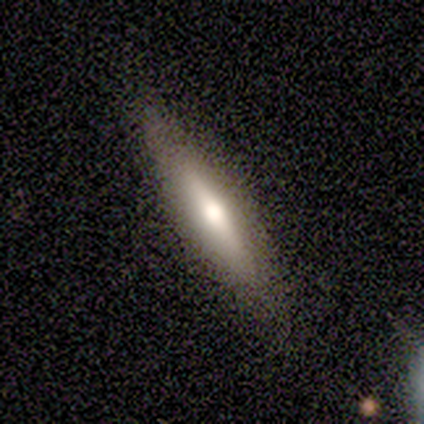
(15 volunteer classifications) Volunteers were most divided on "smooth or featured": smooth: 60%, featured or disk: 33%, star or artifact: 7%. More confident: how rounded — cigar-shaped (89%); merging — none (71%).